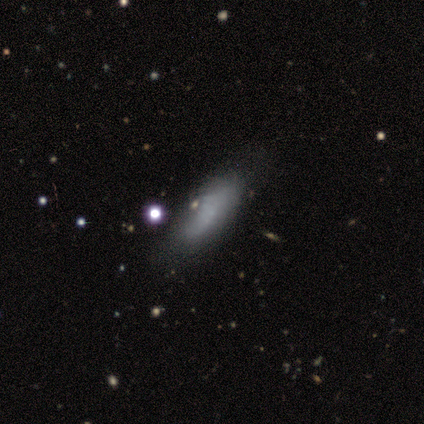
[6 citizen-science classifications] A smooth galaxy with no disk features (50%, tied with featured or disk) that is cigar-shaped (100%).

Vote fractions:
- Smooth or featured? smooth: 50% (tied) / featured or disk: 50% (tied) / star or artifact: 0%
- How rounded? cigar-shaped: 100% / round: 0% / in between: 0%
- Merging? none: 100% / minor disturbance: 0% / major disturbance: 0% / merger: 0%